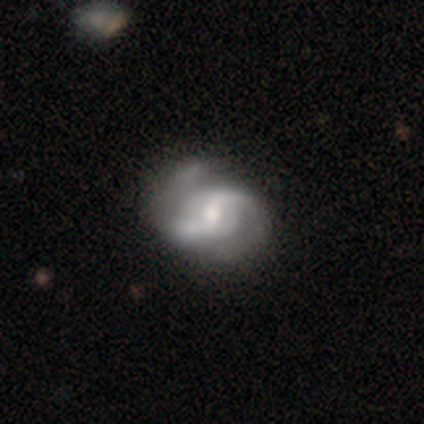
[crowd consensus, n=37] Overall: featured or disk (97%). Edge-on disk: no (100%). Bar: weak (56%; no 36%). Spiral arms: yes (94%). Spiral arm count: 2 (97%). Spiral winding: medium (50%; loose 35%). Bulge size: moderate (61%; small 36%). Merging: none (33%; minor disturbance 28%).